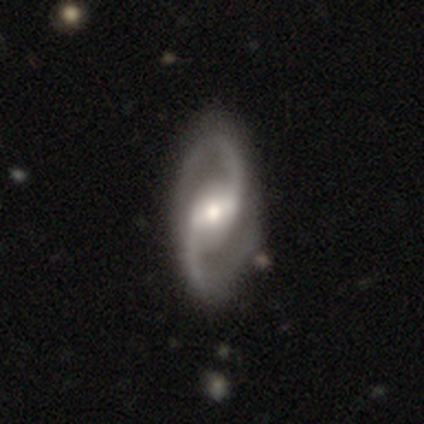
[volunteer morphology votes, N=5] This appears to be a featured or disk galaxy (80%) with a weak bar (100%), 2 (100%) medium (100%) spiral arms (100%) and a moderate central bulge (75%). Merging: none (80%).